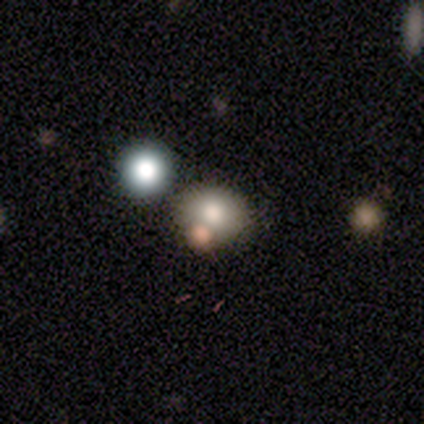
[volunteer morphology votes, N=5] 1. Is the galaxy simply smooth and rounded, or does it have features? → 80% smooth, 20% star or artifact, 0% featured or disk.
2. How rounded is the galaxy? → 75% round, 25% in between, 0% cigar-shaped.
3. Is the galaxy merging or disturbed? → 75% none, 25% merger, 0% minor disturbance, 0% major disturbance.